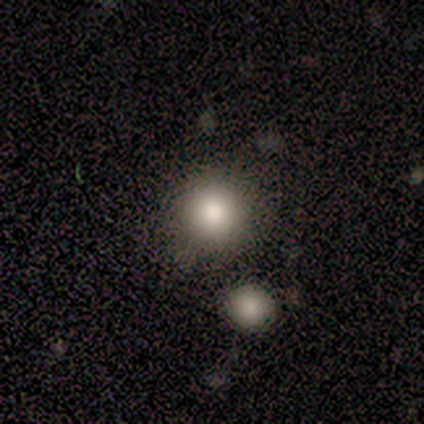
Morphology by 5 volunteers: Smooth or featured? smooth (100%)
How rounded? round (100%)
Merging? none (100%)